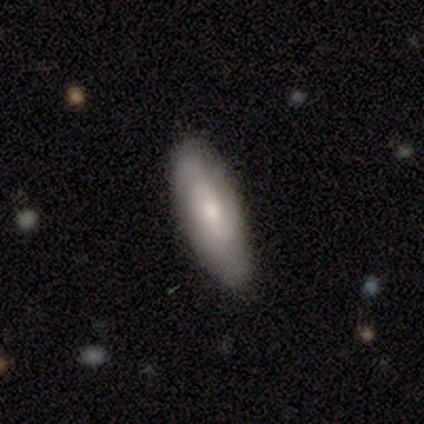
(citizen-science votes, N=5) This appears to be a smooth galaxy with no disk features (80%) that is in between round and cigar-shaped (75%). Merging: none (60%).